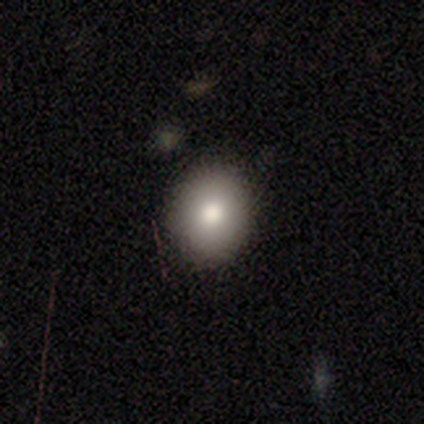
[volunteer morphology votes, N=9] This is likely a smooth galaxy (78%). How rounded: clearly round (86%). Merging: clearly none (89%).